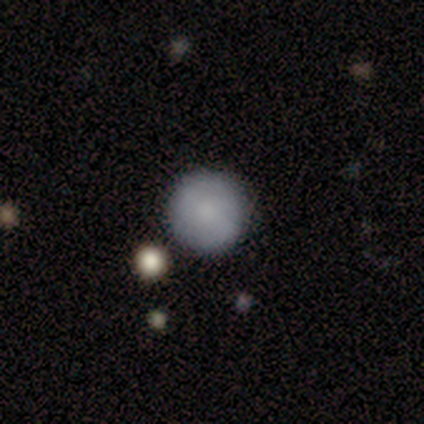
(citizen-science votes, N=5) Q: Smooth or featured?
A: smooth (100%)
Q: How rounded?
A: round (100%)
Q: Merging?
A: none (100%)